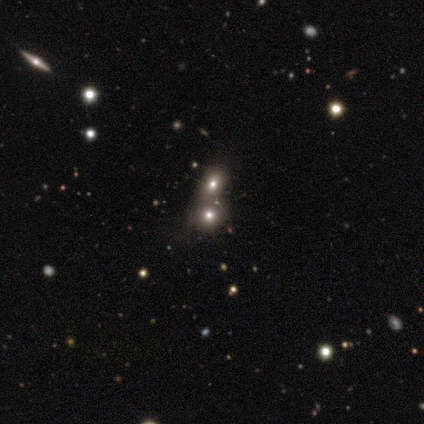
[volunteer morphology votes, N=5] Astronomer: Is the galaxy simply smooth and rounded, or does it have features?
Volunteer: smooth — 80%.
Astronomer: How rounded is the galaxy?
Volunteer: round — 100%.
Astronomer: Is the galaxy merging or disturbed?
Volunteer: minor disturbance — 40%, tied with merger at 40%.